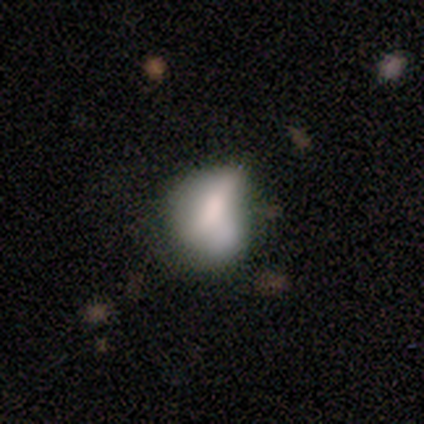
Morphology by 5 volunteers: Overall: featured or disk (60%; smooth 40%). Edge-on disk: no (100%). Bar: no (100%). Spiral arms: no (100%). Bulge size: moderate (67%; dominant 33%). Merging: minor disturbance (40%, tied with major disturbance).